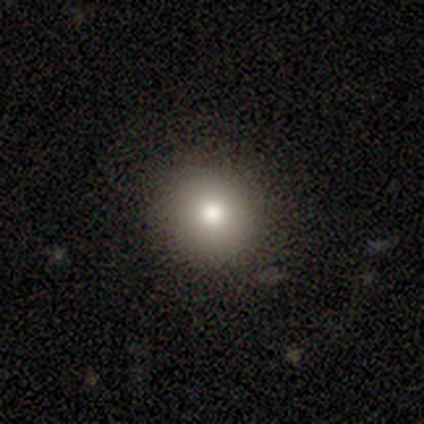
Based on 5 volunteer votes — Smooth or featured? smooth (80%)
How rounded? round (75%)
Merging? none (100%)